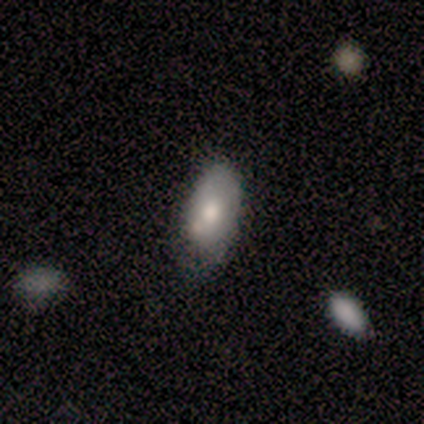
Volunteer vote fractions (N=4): Smooth or featured? 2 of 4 (50%, tied with featured or disk) said smooth. How rounded? 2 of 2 (100%) said in between. Merging? 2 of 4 (50%, tied with minor disturbance) said none.